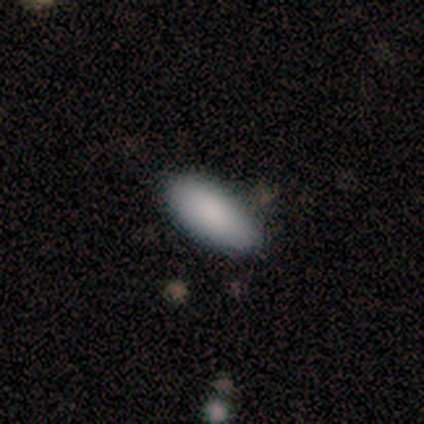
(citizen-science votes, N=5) smooth_or_featured: smooth (p=0.60) [alt: star or artifact p=0.40]
how_rounded: in between (p=1.00)
merging: none (p=1.00)